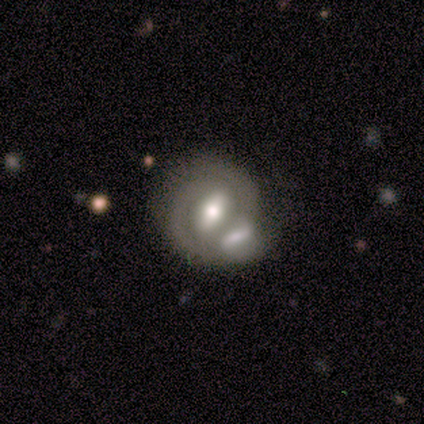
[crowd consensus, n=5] Morphology: type=featured or disk (100%); edge-on=no (100%); bar=strong (60%); spiral arms=no (60%); bulge=moderate (80%); merging=none (40%, tied with merger).